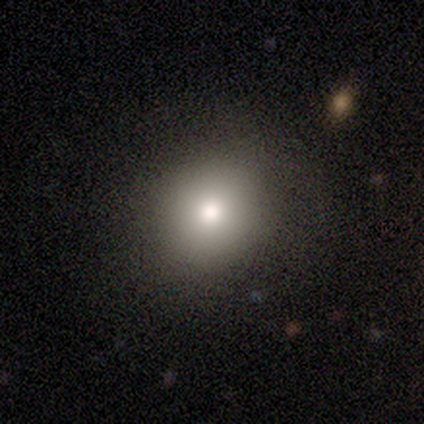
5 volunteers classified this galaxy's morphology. smooth-or-featured: smooth: 80% | featured or disk: 20% | star or artifact: 0%
  how-rounded: round: 100% | in between: 0% | cigar-shaped: 0%
  merging: none: 100% | minor disturbance: 0% | major disturbance: 0% | merger: 0%